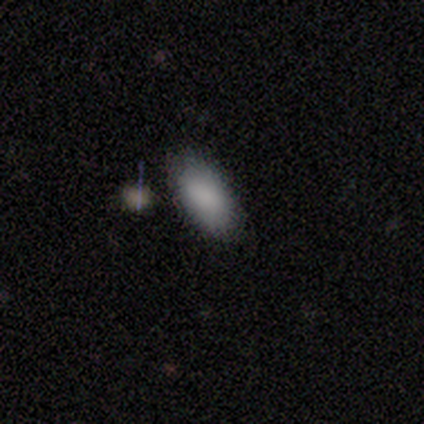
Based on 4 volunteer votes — Smooth or featured? 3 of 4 (75%) said smooth. How rounded? 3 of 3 (100%) said in between. Merging? 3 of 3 (100%) said none.